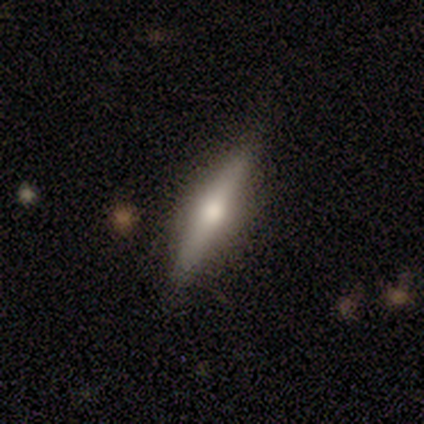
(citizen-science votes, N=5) Smooth or featured: featured or disk — 60% (smooth — 40%)
Edge-on disk: yes — 100%
Edge-on bulge: rounded — 100%
Merging: none — 60% (minor disturbance — 40%)